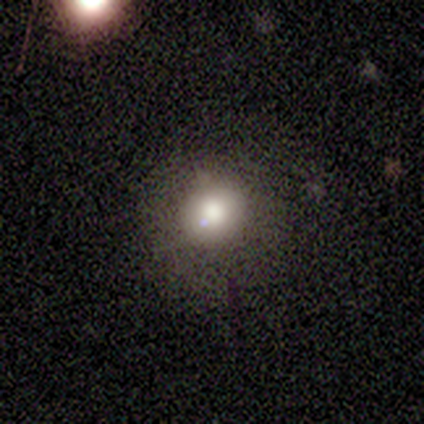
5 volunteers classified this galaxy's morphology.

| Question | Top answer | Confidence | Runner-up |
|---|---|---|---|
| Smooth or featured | smooth | 80% | featured or disk (20%) |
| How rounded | round | 75% | in between (25%) |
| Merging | none | 100% | — |